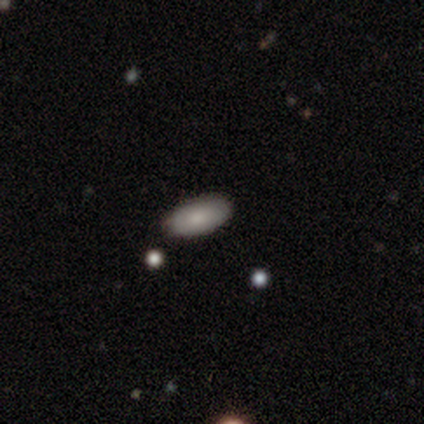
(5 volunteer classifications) Morphology: type=smooth (100%); roundness=in between (100%); merging=none (80%).